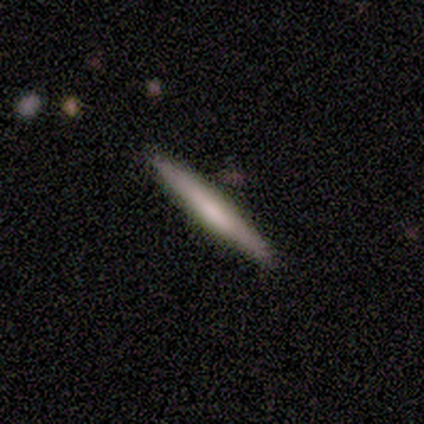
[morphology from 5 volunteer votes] This appears to be a smooth galaxy with no disk features (60%) that is cigar-shaped (100%). Merging: none (100%).